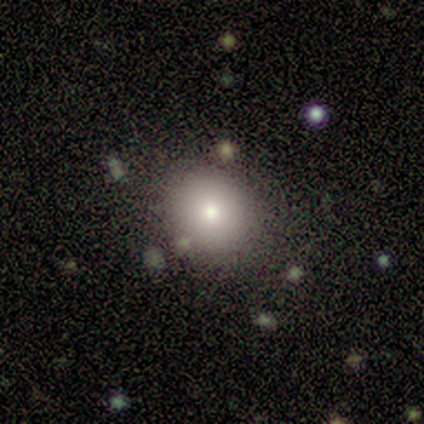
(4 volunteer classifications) A smooth galaxy with no disk features (50%, tied with featured or disk) that is round (100%).

Vote fractions:
- Smooth or featured? smooth: 50% (tied) / featured or disk: 50% (tied) / star or artifact: 0%
- How rounded? round: 100% / in between: 0% / cigar-shaped: 0%
- Merging? none: 75% / major disturbance: 25% / minor disturbance: 0% / merger: 0%